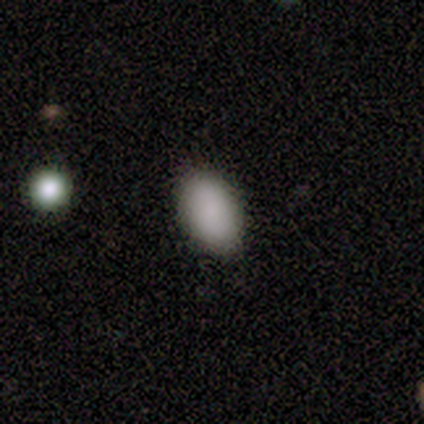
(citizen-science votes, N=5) Smooth or featured? smooth (80%)
How rounded? in between (75%)
Merging? none (75%)